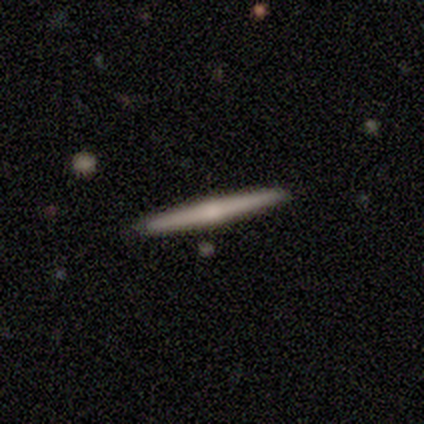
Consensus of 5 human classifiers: Overall: featured or disk (60%; smooth 20%). Edge-on disk: yes (100%). Edge-on bulge: rounded (100%). Merging: none (100%).